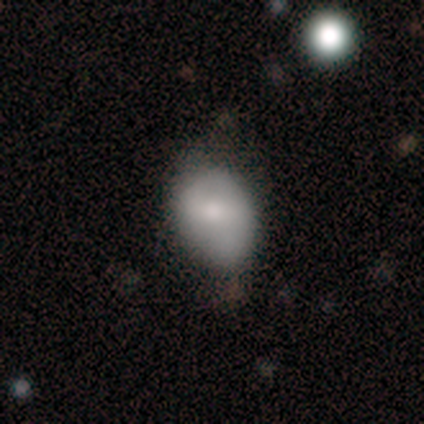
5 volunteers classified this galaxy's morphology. This is clearly a smooth galaxy (100%). How rounded: likely in between (60%). Merging: likely minor disturbance (60%).